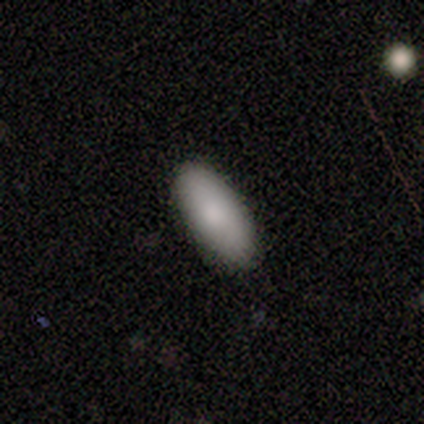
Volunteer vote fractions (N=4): Volunteers were most divided on "merging": none: 50%, minor disturbance: 25%, merger: 25%, major disturbance: 0%. More confident: smooth or featured — smooth (100%); how rounded — in between (75%).